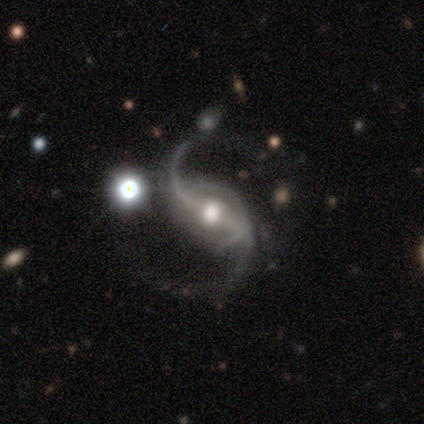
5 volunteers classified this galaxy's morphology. featured or disk 100%, smooth 0%, star or artifact 0%. Down the decision tree: edge-on disk — no (80%); bar — strong (75%); spiral arms — yes (100%); spiral arm count — 2 (100%); spiral winding — medium (50%, tied with loose); bulge size — moderate (50%); merging — minor disturbance (60%).